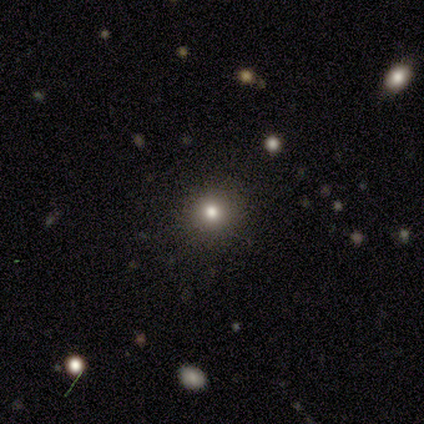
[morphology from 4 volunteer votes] Volunteers were most divided on "smooth or featured": smooth: 75%, star or artifact: 25%, featured or disk: 0%. More confident: how rounded — round (100%); merging — none (100%).